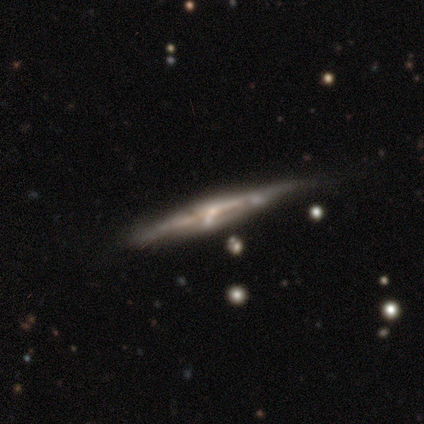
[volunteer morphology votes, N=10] Smooth or featured?
  - featured or disk: 90% *
  - smooth: 10%
  - star or artifact: 0%
Edge-on disk?
  - yes: 89% *
  - no: 11%
Edge-on bulge?
  - none: 38% * (tied)
  - rounded: 38% * (tied)
  - boxy: 25%
Merging?
  - none: 70% *
  - minor disturbance: 30%
  - major disturbance: 0%
  - merger: 0%